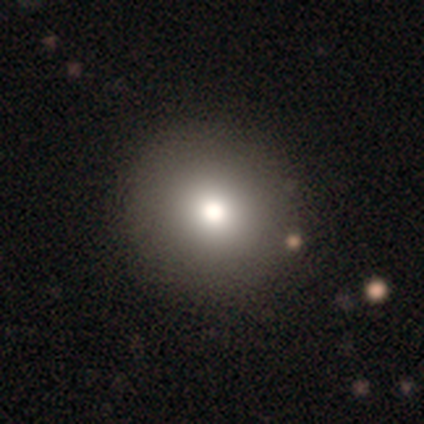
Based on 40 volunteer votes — Smooth or featured?
  - smooth: 82% *
  - featured or disk: 10%
  - star or artifact: 8%
How rounded?
  - round: 91% *
  - in between: 9%
  - cigar-shaped: 0%
Merging?
  - none: 57% *
  - major disturbance: 3%
  - merger: 3%
  - minor disturbance: 0%